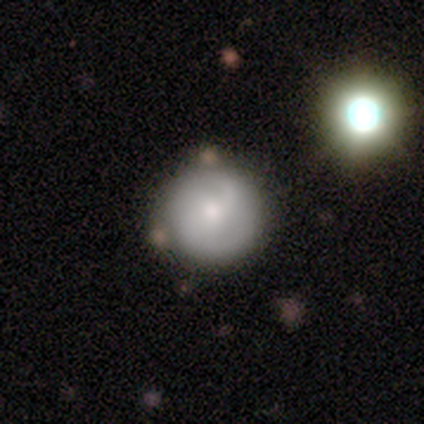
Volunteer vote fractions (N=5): Smooth or featured? 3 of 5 (60%) said smooth. How rounded? 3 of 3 (100%) said round. Merging? 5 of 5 (100%) said none.